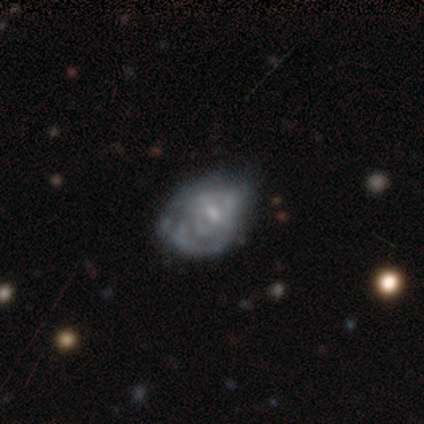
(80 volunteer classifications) This is clearly a featured or disk galaxy (85%). It is clearly not viewed edge-on (99%). Bar: possibly no (60%). Spiral arm pattern: likely yes (67%). Spiral arm count: possibly can't tell (58%). Spiral winding: marginally tight (44%). Central bulge: possibly small (57%). Merging: marginally none (26%).